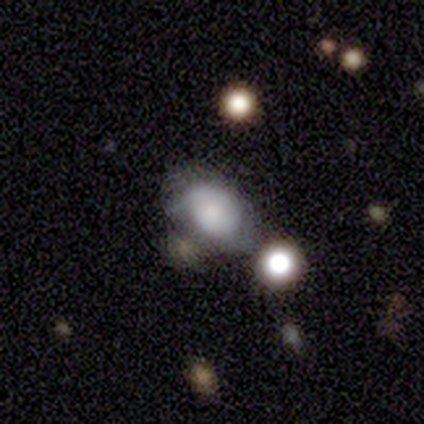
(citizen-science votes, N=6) Volunteers were most divided on "merging": minor disturbance: 60%, none: 20%, merger: 20%, major disturbance: 0%. More confident: how rounded — in between (100%); smooth or featured — smooth (67%).